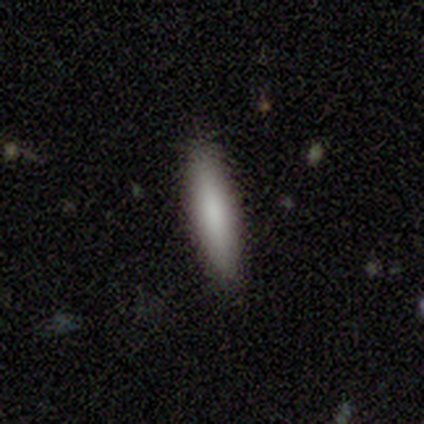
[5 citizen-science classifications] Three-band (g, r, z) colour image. It shows a smooth galaxy with no disk features (100%) that is cigar-shaped (80%). Merging: none (100%).